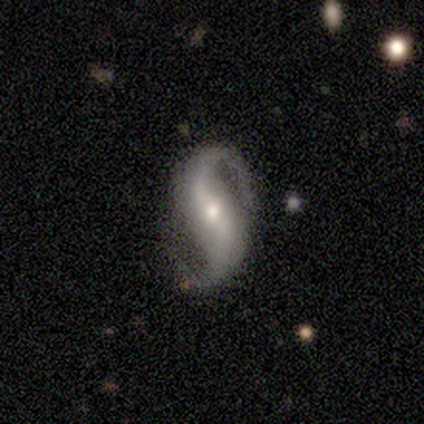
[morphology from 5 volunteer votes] This is clearly a featured or disk galaxy (100%). It is clearly not viewed edge-on (100%). Bar: likely strong (60%). Spiral arm pattern: clearly yes (100%). Spiral arm count: clearly 2 (100%). Spiral winding: likely loose (60%). Central bulge: likely small (60%). Merging: clearly none (80%).